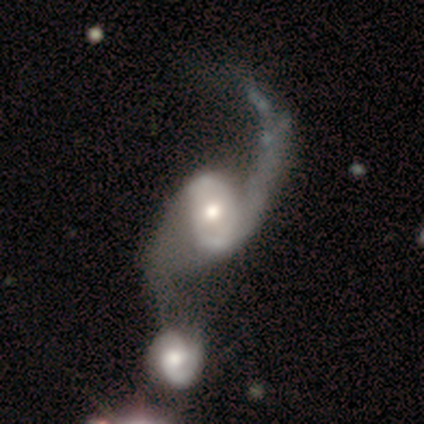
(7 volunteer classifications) smooth_or_featured: featured or disk (p=1.00)
disk_edge_on: no (p=0.71) [alt: yes p=0.29]
bar: no (p=0.60) [alt: strong p=0.20]
has_spiral_arms: yes (p=0.80) [alt: no p=0.20]
spiral_winding: loose (p=1.00)
spiral_arm_count: 2 (p=0.75) [alt: 1 p=0.25]
bulge_size: moderate (p=0.60) [alt: large p=0.20]
merging: merger (p=0.57) [alt: minor disturbance p=0.29]